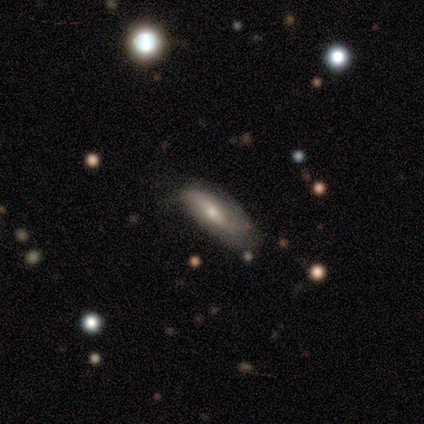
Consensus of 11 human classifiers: This is likely a featured or disk galaxy (64%). It is possibly viewed edge-on (57%). Edge-on bulge: clearly rounded (100%). Merging: likely none (73%).